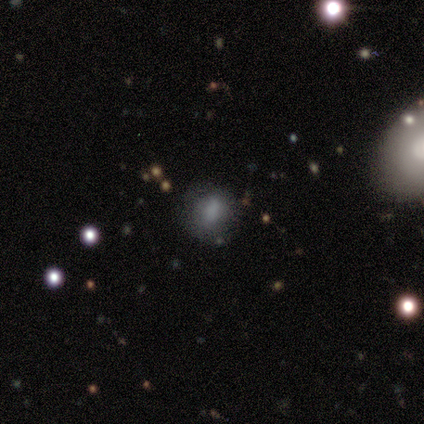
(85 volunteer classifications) This is likely a smooth galaxy (62%). How rounded: possibly round (57%). Merging: clearly none (80%).